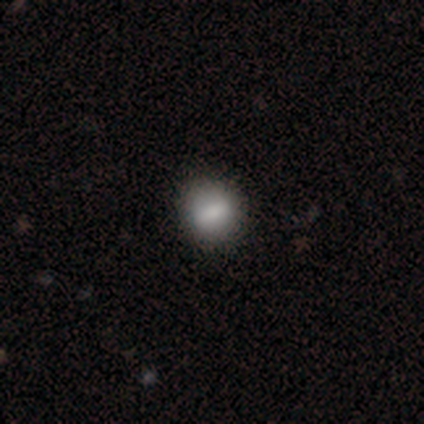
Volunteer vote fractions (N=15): Smooth or featured? 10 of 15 (67%) said smooth. How rounded? 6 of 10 (60%) said round. Merging? 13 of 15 (87%) said none.